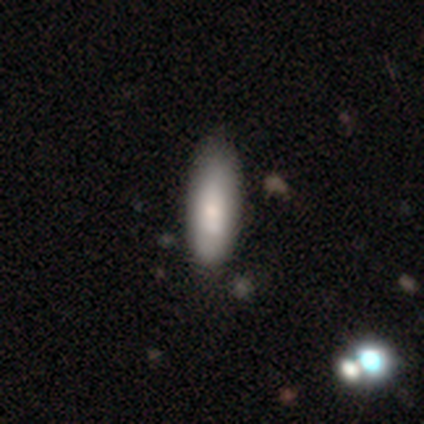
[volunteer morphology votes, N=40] Smooth or featured: smooth — 75% (featured or disk — 22%)
How rounded: in between — 73% (cigar-shaped — 27%)
Merging: none — 54% (minor disturbance — 18%)